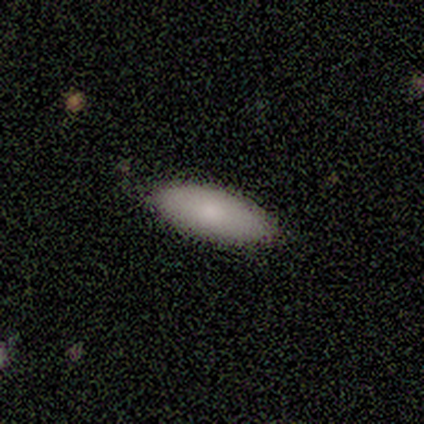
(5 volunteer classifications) This appears to be a smooth galaxy with no disk features (100%) that is in between round and cigar-shaped (100%). Merging: none (80%).